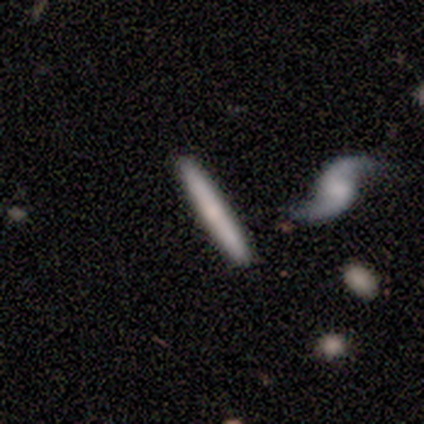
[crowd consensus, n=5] Smooth or featured? smooth (60%)
How rounded? cigar-shaped (100%)
Merging? none (100%)